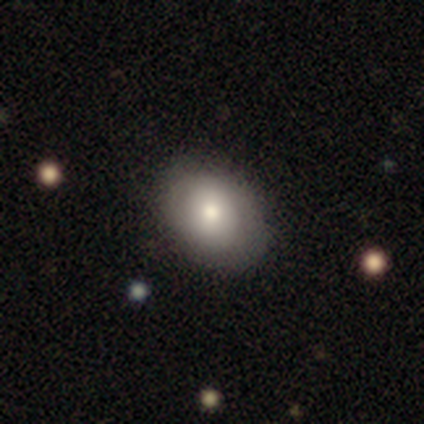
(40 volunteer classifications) Smooth or featured? smooth (75%)
How rounded? in between (60%)
Merging? none (57%)